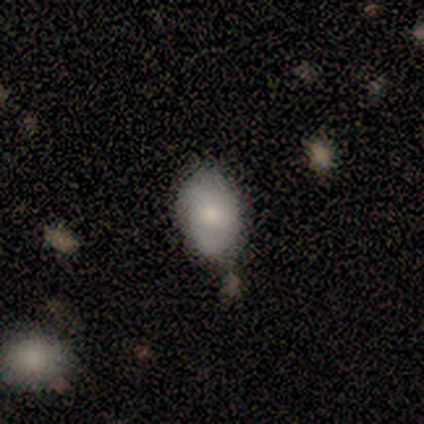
A smooth galaxy with no disk features (78%) that is in between round and cigar-shaped (100%).

Vote fractions:
- Smooth or featured? smooth: 78% / star or artifact: 22% / featured or disk: 0%
- How rounded? in between: 100% / round: 0% / cigar-shaped: 0%
- Merging? none: 86% / minor disturbance: 14% / major disturbance: 0% / merger: 0%